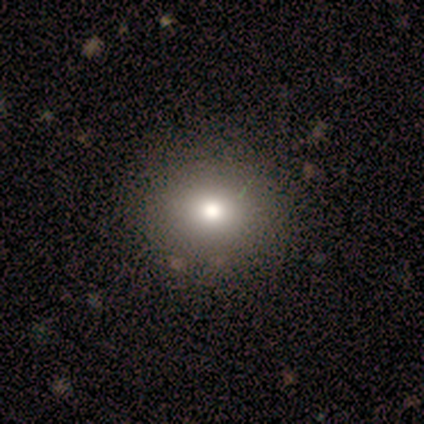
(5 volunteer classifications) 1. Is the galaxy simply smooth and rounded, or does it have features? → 80% smooth, 20% featured or disk, 0% star or artifact.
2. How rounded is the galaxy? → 50% round (tied), 50% in between (tied), 0% cigar-shaped.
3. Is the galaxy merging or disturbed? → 60% none, 40% minor disturbance, 0% major disturbance, 0% merger.